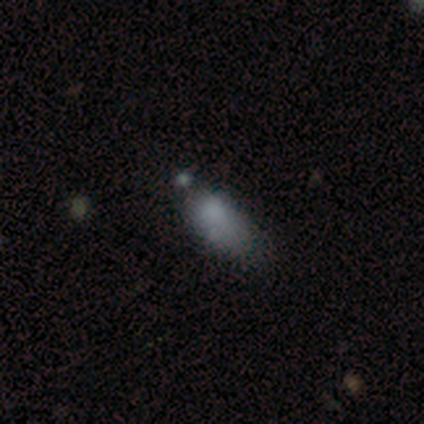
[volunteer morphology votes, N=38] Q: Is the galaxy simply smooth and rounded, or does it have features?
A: smooth — 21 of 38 (55%).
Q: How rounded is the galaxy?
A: in between — 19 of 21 (90%).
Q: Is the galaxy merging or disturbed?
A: none — 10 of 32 (31%, tied with minor disturbance).